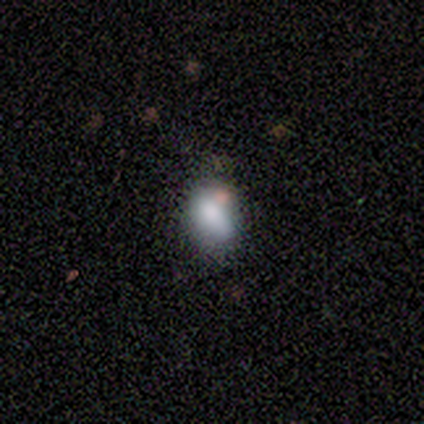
smooth 86%, star or artifact 14%, featured or disk 0%. Down the decision tree: how rounded — in between (67%); merging — none (67%).